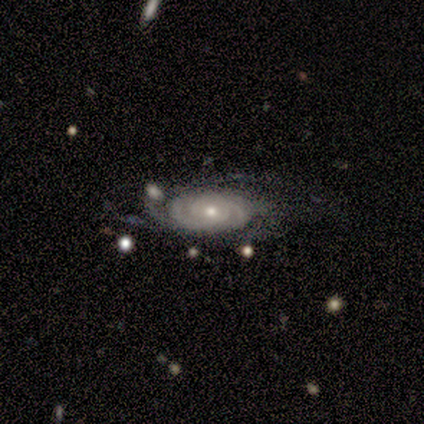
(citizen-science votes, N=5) Morphology: type=featured or disk (100%); edge-on=no (100%); bar=no (100%); spiral arms=yes (100%); winding=tight (80%); arm count=4 (40%); bulge=moderate (40%, tied with small); merging=minor disturbance (40%, tied with merger).